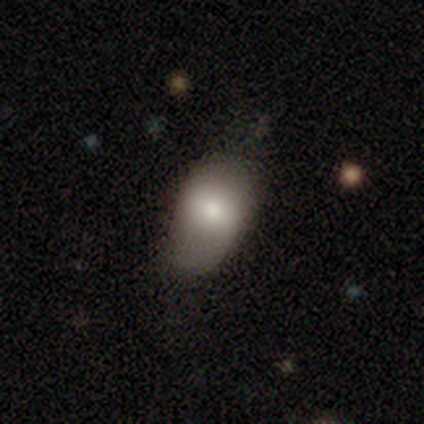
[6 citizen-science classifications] Smooth or featured? 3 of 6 (50%, tied with featured or disk) said smooth. How rounded? 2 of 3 (67%) said in between. Merging? 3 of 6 (50%) said none.